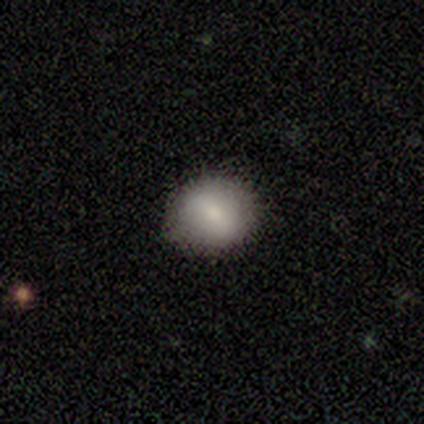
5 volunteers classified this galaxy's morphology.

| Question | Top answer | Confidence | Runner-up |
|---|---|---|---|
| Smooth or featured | smooth | 80% | featured or disk (20%) |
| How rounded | round | 50% | tied: in between (50%) |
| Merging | none | 80% | minor disturbance (20%) |